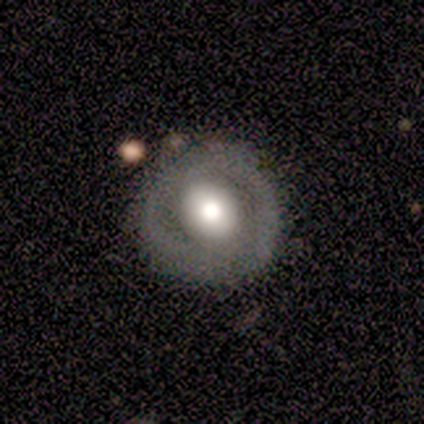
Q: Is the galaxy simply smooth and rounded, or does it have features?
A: featured or disk — 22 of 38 (58%).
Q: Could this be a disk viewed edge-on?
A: no — 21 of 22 (95%).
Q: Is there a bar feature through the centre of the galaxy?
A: no — 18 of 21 (86%).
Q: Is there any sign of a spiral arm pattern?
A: no — 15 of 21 (71%).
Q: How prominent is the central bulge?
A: large — 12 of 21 (57%).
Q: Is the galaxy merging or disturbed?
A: none — 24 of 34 (71%).